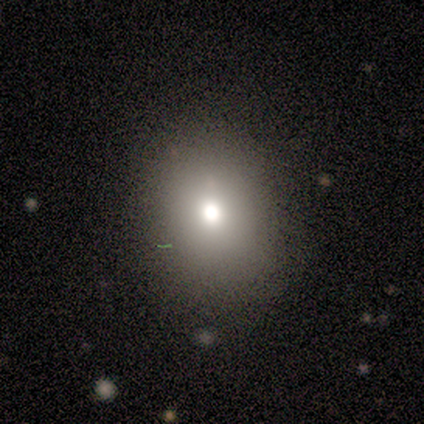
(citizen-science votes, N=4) smooth 50% (tied), featured or disk 50% (tied), star or artifact 0%. Down the decision tree: how rounded — round (50%, tied with in between); merging — none (75%).